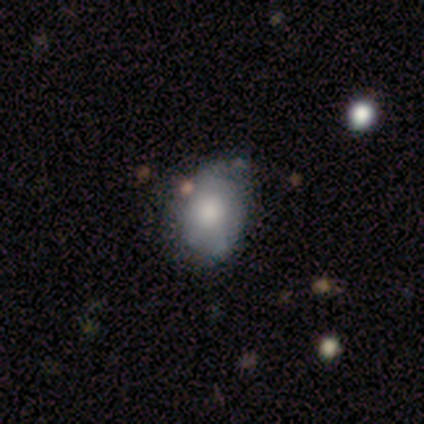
smooth_or_featured: smooth (p=0.60) [alt: featured or disk p=0.40]
how_rounded: round (p=0.67) [alt: in between p=0.33]
merging: minor disturbance (p=0.60) [alt: none p=0.40]